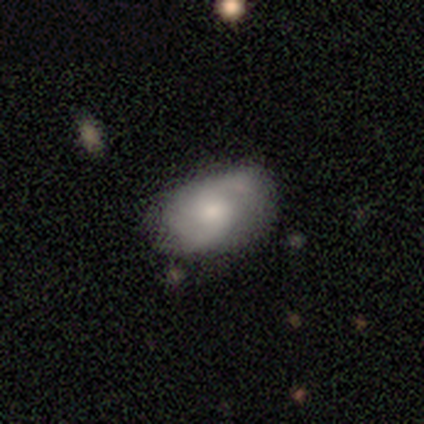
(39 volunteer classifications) smooth_or_featured: featured or disk (p=0.59) [alt: smooth p=0.28]
disk_edge_on: no (p=1.00)
bar: no (p=0.57) [alt: weak p=0.39]
has_spiral_arms: yes (p=0.91) [alt: no p=0.09]
spiral_winding: medium (p=0.52) [alt: loose p=0.38]
spiral_arm_count: 2 (p=0.86) [alt: can't tell p=0.14]
bulge_size: moderate (p=0.39) [alt: small p=0.35]
merging: none (p=0.62) [alt: minor disturbance p=0.32]